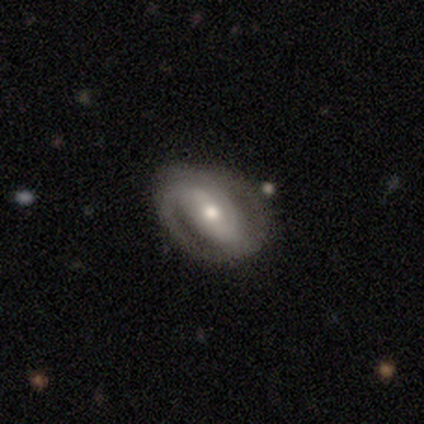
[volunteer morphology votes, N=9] featured or disk 89%, smooth 11%, star or artifact 0%. Down the decision tree: edge-on disk — no (100%); bar — strong (75%); spiral arms — yes (88%); spiral arm count — 2 (71%); spiral winding — medium (57%); bulge size — moderate (50%, tied with small); merging — none (89%).